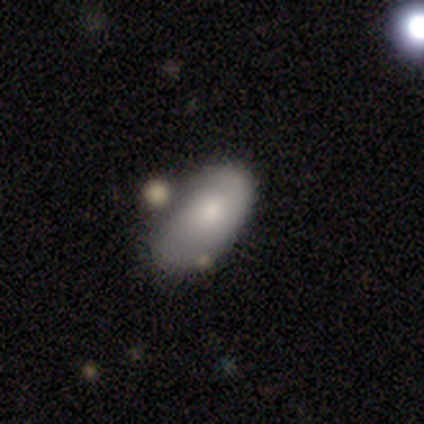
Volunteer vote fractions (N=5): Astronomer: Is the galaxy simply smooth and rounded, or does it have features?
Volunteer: featured or disk — 80%.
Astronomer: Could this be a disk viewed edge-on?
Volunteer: no — 100%.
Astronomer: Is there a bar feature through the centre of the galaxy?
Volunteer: no — 100%.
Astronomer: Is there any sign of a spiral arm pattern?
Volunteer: yes — 75%.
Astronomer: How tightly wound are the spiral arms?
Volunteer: loose — 67%.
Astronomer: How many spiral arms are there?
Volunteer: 2 — 67%.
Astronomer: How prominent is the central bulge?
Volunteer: moderate — 75%.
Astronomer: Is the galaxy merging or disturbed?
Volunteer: none — 80%.